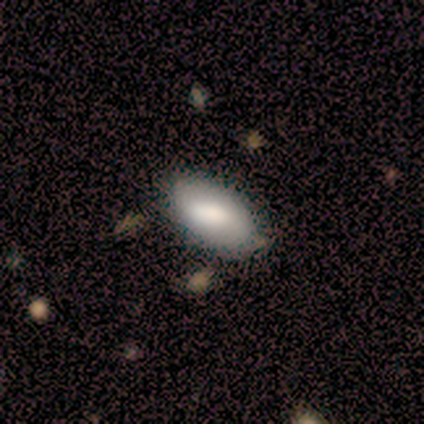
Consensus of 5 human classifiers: Q: Smooth or featured?
A: smooth (80%); runner-up: featured or disk (20%)
Q: How rounded?
A: in between (100%)
Q: Merging?
A: none (80%); runner-up: minor disturbance (20%)